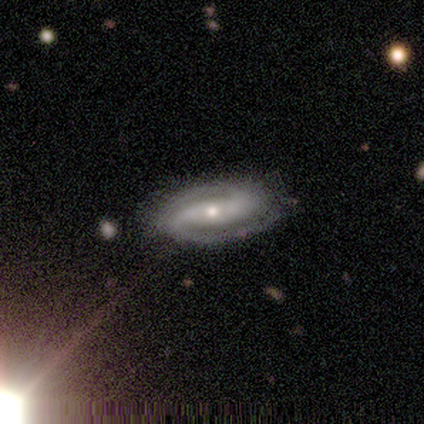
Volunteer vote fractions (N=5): This appears to be a featured or disk galaxy (100%) with no bar (60%), 2 (100%) tight (40%, tied with medium) spiral arms (100%) and a small central bulge (60%). Merging: none (100%).